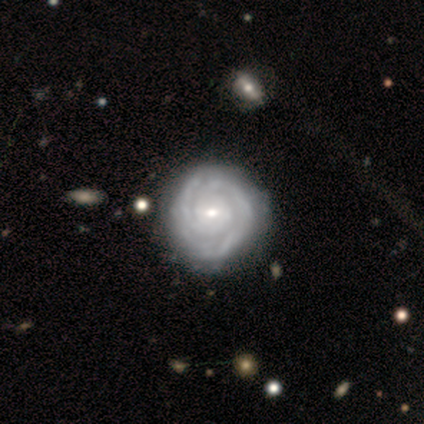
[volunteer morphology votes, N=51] This appears to be a featured or disk galaxy (84%) with no bar (67%), tight (85%) spiral arms (93%) and a small central bulge (67%). Merging: none (81%).